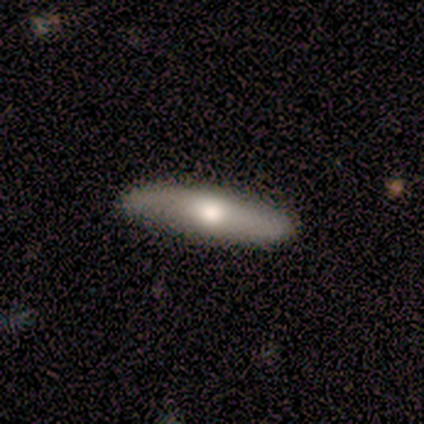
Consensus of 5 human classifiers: Q: Smooth or featured?
A: smooth (60%); runner-up: featured or disk (40%)
Q: How rounded?
A: cigar-shaped (67%); runner-up: in between (33%)
Q: Merging?
A: none (100%)